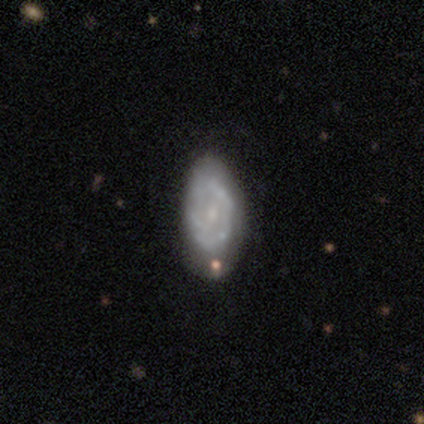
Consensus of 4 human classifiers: Smooth or featured?
  - featured or disk: 75% *
  - smooth: 25%
  - star or artifact: 0%
Edge-on disk?
  - no: 100% *
  - yes: 0%
Bar?
  - no: 67% *
  - weak: 33%
  - strong: 0%
Spiral arms?
  - no: 67% *
  - yes: 33%
Bulge size?
  - small: 67% *
  - none: 33%
  - dominant: 0%
  - large: 0%
  - moderate: 0%
Merging?
  - none: 75% *
  - minor disturbance: 25%
  - major disturbance: 0%
  - merger: 0%